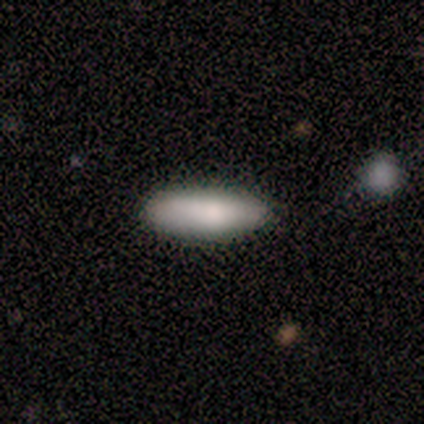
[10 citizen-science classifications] smooth-or-featured: smooth: 90% | featured or disk: 10% | star or artifact: 0%
  how-rounded: in between: 56% | cigar-shaped: 44% | round: 0%
  merging: none: 80% | minor disturbance: 10% | merger: 10% | major disturbance: 0%